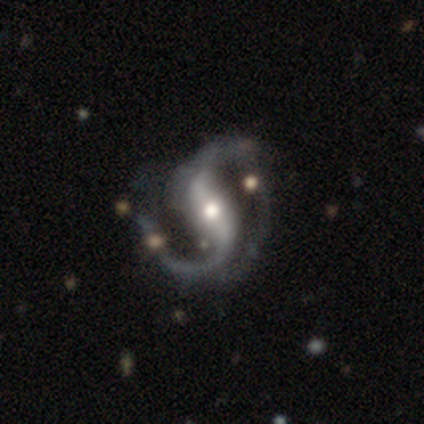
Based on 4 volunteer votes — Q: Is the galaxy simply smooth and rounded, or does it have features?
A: featured or disk — 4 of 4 (100%).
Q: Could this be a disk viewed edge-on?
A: no — 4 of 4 (100%).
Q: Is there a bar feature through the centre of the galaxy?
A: weak — 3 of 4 (75%).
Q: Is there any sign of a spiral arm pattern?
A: yes — 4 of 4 (100%).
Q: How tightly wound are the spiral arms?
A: medium — 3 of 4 (75%).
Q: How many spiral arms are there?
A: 2 — 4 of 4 (100%).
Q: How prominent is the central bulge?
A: moderate — 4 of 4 (100%).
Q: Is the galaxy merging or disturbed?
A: none — 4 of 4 (100%).